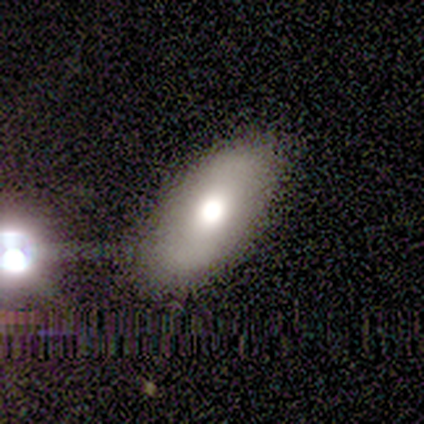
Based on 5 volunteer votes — smooth 80%, featured or disk 20%, star or artifact 0%. Down the decision tree: how rounded — in between (100%); merging — minor disturbance (60%).